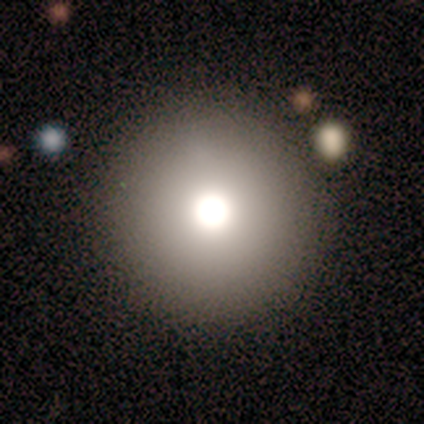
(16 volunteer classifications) Smooth or featured? smooth (75%)
How rounded? round (100%)
Merging? none (85%)